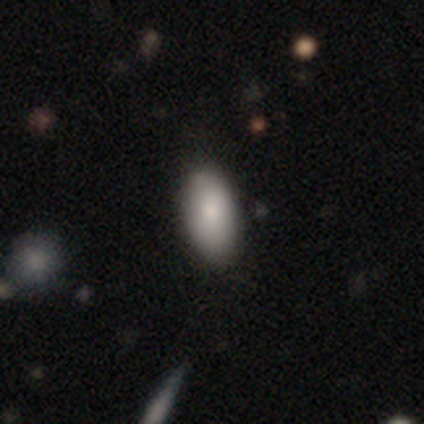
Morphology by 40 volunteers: Smooth or featured?
  - smooth: 78% *
  - featured or disk: 15%
  - star or artifact: 8%
How rounded?
  - in between: 100% *
  - round: 0%
  - cigar-shaped: 0%
Merging?
  - none: 51% *
  - minor disturbance: 11%
  - major disturbance: 3%
  - merger: 0%